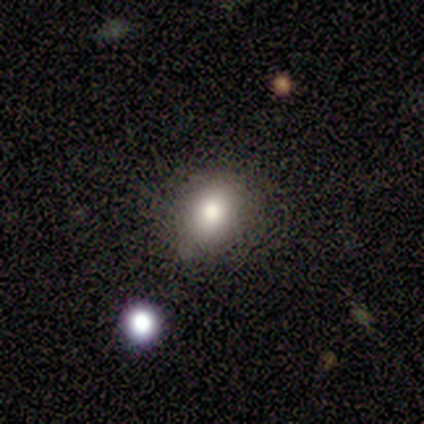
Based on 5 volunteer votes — Smooth or featured? 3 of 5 (60%) said featured or disk. Edge-on disk? 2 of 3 (67%) said no. Bar? 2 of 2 (100%) said no. Spiral arms? 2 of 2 (100%) said no. Bulge size? 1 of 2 (50%, tied with large) said dominant. Merging? 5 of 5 (100%) said none.